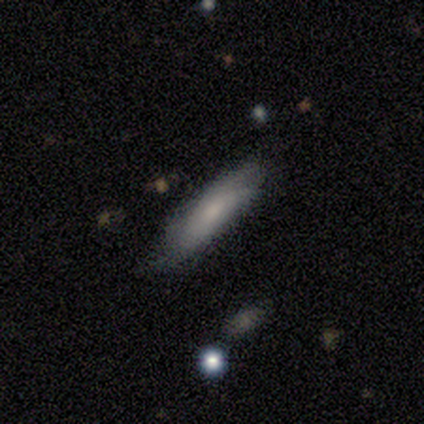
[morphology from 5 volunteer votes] This appears to be a smooth galaxy with no disk features (80%) that is cigar-shaped (75%). Merging: none (80%).